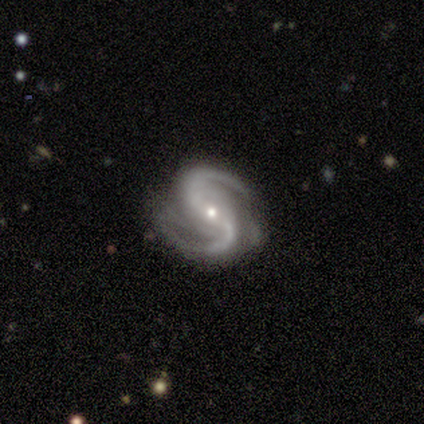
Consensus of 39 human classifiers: featured or disk 79%, star or artifact 15%, smooth 5%. Down the decision tree: edge-on disk — no (97%); bar — no (43%); spiral arms — yes (100%); spiral arm count — 2 (80%); spiral winding — medium (57%); bulge size — small (60%); merging — none (61%).